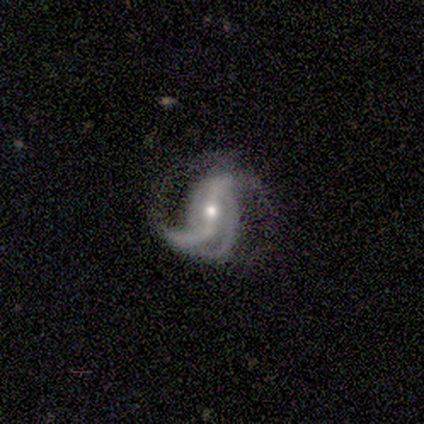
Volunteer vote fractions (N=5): A featured or disk galaxy (100%) with a strong bar (40%, tied with weak), 3 (60%) loose (60%) spiral arms (100%) and a moderate central bulge (40%, tied with small).

Vote fractions:
- Smooth or featured? featured or disk: 100% / smooth: 0% / star or artifact: 0%
- Edge-on disk? no: 100% / yes: 0%
- Bar? strong: 40% (tied) / weak: 40% (tied) / no: 20%
- Spiral arms? yes: 100% / no: 0%
- Spiral winding? loose: 60% / medium: 40% / tight: 0%
- Spiral arm count? 3: 60% / 2: 40% / 1: 0% / 4: 0% / more than 4: 0% / can't tell: 0%
- Bulge size? moderate: 40% (tied) / small: 40% (tied) / none: 20% / dominant: 0% / large: 0%
- Merging? minor disturbance: 60% / none: 40% / major disturbance: 0% / merger: 0%